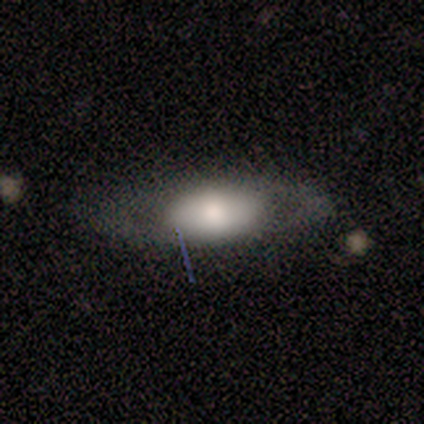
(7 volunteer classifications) Smooth or featured? featured or disk (86%)
Edge-on disk? no (83%)
Bar? weak (40%, tied with no)
Spiral arms? no (100%)
Bulge size? large (40%, tied with moderate)
Merging? none (43%, tied with minor disturbance)